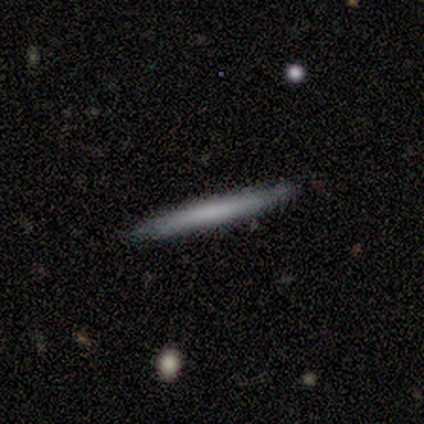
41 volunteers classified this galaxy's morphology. A smooth galaxy with no disk features (71%) that is cigar-shaped (97%). Merging: none (97%).